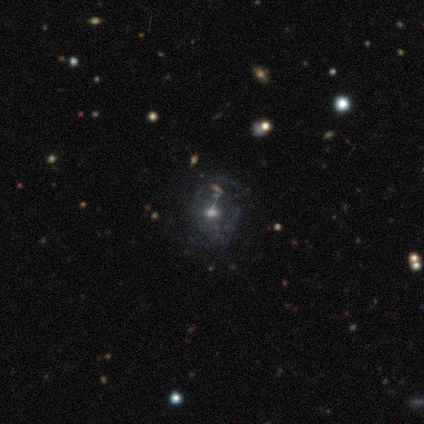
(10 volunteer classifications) star or artifact 40%, smooth 30%, featured or disk 30%.